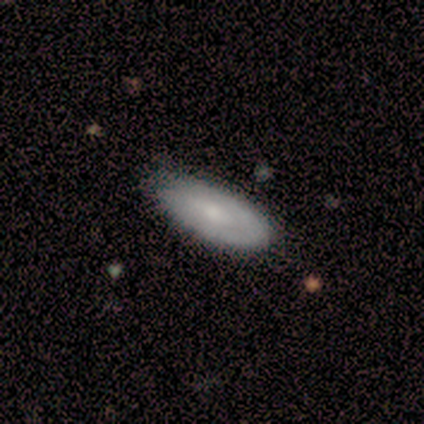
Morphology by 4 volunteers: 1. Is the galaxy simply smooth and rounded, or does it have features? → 50% smooth (tied), 50% featured or disk (tied), 0% star or artifact.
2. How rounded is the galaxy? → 100% in between, 0% round, 0% cigar-shaped.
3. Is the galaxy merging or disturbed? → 75% none, 25% minor disturbance, 0% major disturbance, 0% merger.